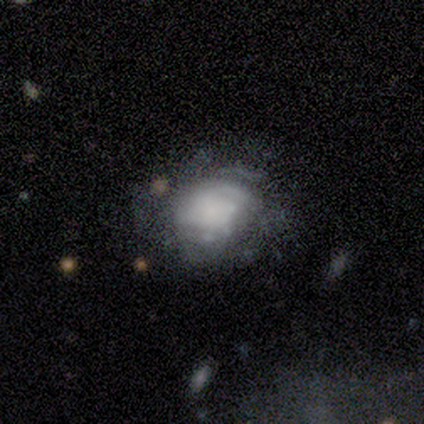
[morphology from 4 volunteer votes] Overall: smooth (50%, tied with featured or disk). How rounded: round (50%, tied with in between). Merging: minor disturbance (75%).